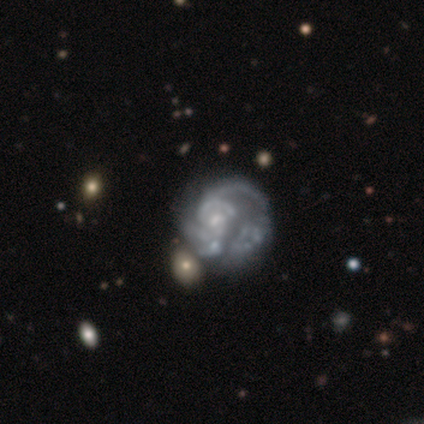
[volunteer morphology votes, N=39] This appears to be a featured or disk galaxy (97%) with no bar (82%), medium (37%) spiral arms (71%) and a small central bulge (47%). Merging: major disturbance (46%).